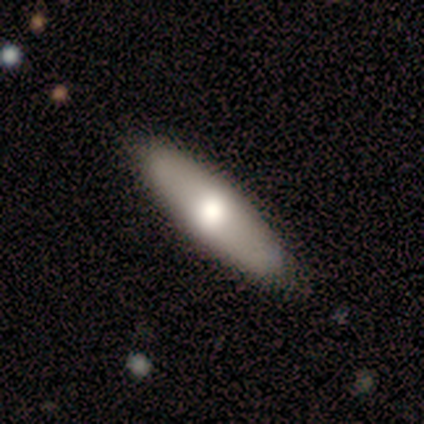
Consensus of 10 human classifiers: Q: Smooth or featured?
A: smooth (90%); runner-up: featured or disk (10%)
Q: How rounded?
A: in between (67%); runner-up: cigar-shaped (33%)
Q: Merging?
A: none (90%); runner-up: minor disturbance (10%)